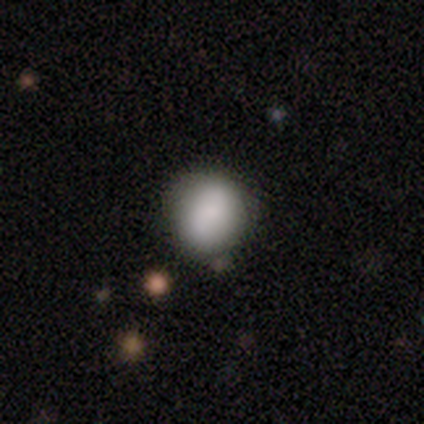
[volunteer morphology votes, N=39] This is clearly a smooth galaxy (85%). How rounded: clearly round (88%). Merging: likely none (79%).